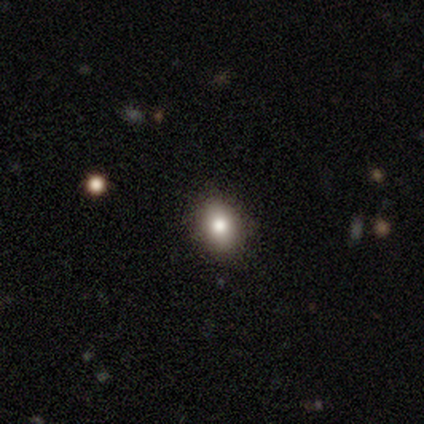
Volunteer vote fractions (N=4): This is possibly a smooth galaxy (50%). How rounded: clearly round (100%). Merging: clearly none (100%).